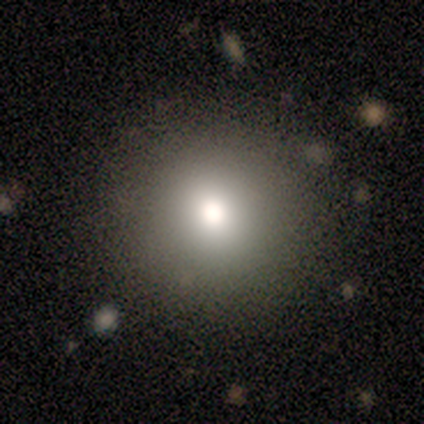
smooth-or-featured: smooth: 60% | star or artifact: 40% | featured or disk: 0%
  how-rounded: round: 100% | in between: 0% | cigar-shaped: 0%
  merging: minor disturbance: 67% | none: 33% | major disturbance: 0% | merger: 0%